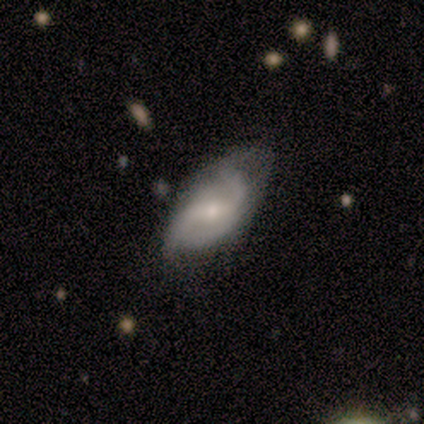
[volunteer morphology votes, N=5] This is likely a featured or disk galaxy (60%). It is clearly not viewed edge-on (100%). Bar: likely weak (67%). Spiral arm pattern: clearly yes (100%). Spiral arm count: clearly 2 (100%). Spiral winding: likely loose (67%). Central bulge: likely moderate (67%). Merging: clearly minor disturbance (80%).